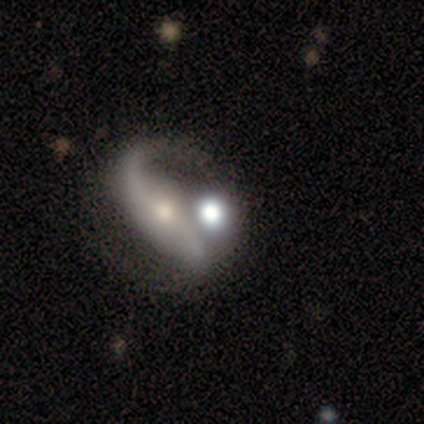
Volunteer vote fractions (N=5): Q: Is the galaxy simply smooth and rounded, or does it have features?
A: featured or disk — 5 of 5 (100%).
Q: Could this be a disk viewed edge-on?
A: no — 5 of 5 (100%).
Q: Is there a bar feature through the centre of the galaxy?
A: no — 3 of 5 (60%).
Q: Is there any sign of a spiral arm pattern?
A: yes — 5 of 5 (100%).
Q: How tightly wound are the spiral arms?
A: loose — 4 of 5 (80%).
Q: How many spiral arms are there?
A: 1 — 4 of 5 (80%).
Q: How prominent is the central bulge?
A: moderate — 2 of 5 (40%, tied with small).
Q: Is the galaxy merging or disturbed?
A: merger — 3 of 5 (60%).